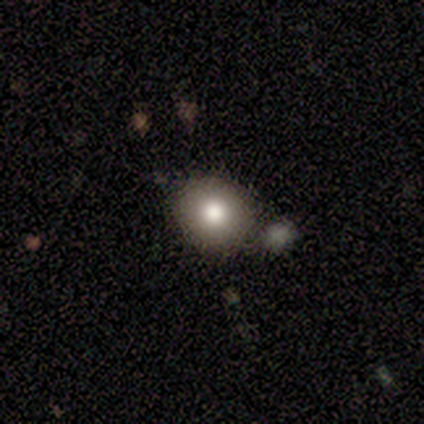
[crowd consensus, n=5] Smooth or featured? smooth (100%)
How rounded? round (60%)
Merging? none (40%)